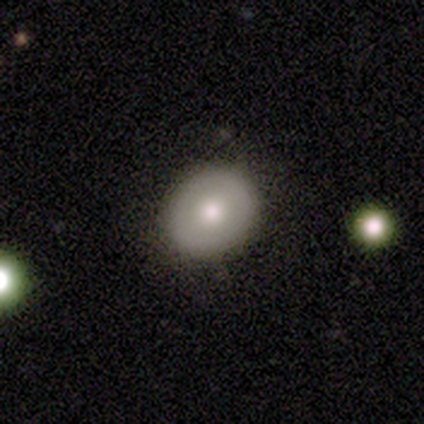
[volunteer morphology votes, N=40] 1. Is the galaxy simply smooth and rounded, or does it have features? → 65% smooth, 35% featured or disk, 0% star or artifact.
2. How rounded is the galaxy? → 73% round, 27% in between, 0% cigar-shaped.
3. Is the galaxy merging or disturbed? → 88% none, 8% minor disturbance, 2% major disturbance, 2% merger.